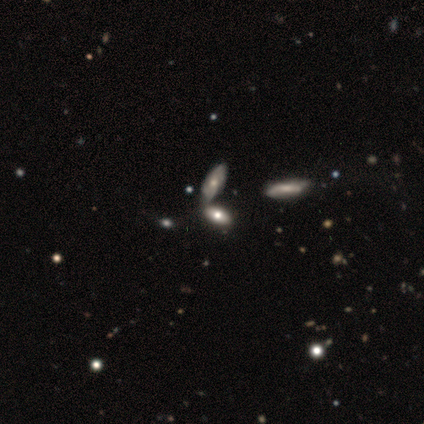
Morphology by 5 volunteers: A smooth galaxy with no disk features (80%) that is in between round and cigar-shaped (75%). Merging: merger (50%).